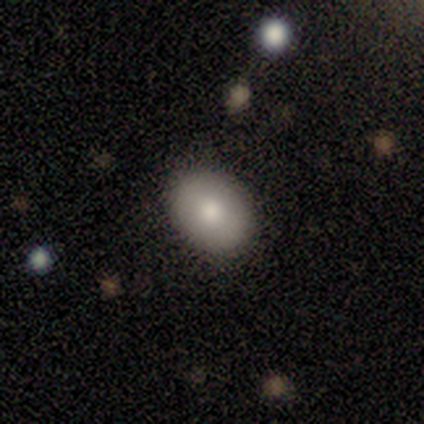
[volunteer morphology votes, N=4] A smooth galaxy with no disk features (100%) that is in between round and cigar-shaped (75%).

Vote fractions:
- Smooth or featured? smooth: 100% / featured or disk: 0% / star or artifact: 0%
- How rounded? in between: 75% / round: 25% / cigar-shaped: 0%
- Merging? none: 100% / minor disturbance: 0% / major disturbance: 0% / merger: 0%